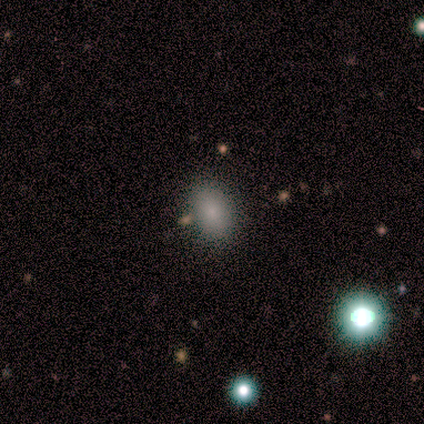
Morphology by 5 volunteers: Q: Smooth or featured?
A: smooth (80%); runner-up: star or artifact (20%)
Q: How rounded?
A: in between (100%)
Q: Merging?
A: none (75%); runner-up: major disturbance (25%)